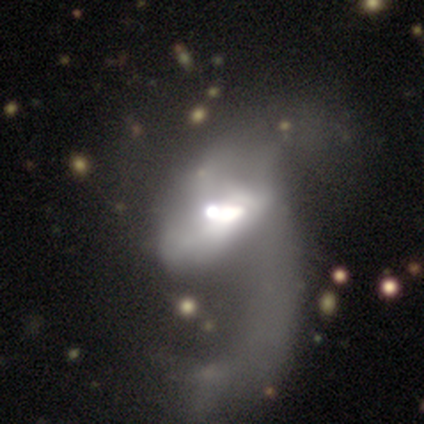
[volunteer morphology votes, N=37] This is clearly a featured or disk galaxy (81%). It is clearly not viewed edge-on (97%). Bar: possibly no (52%). Spiral arm pattern: likely yes (66%). Spiral arm count: likely 1 (63%). Spiral winding: likely loose (74%). Central bulge: marginally moderate (45%). Merging: possibly major disturbance (49%).